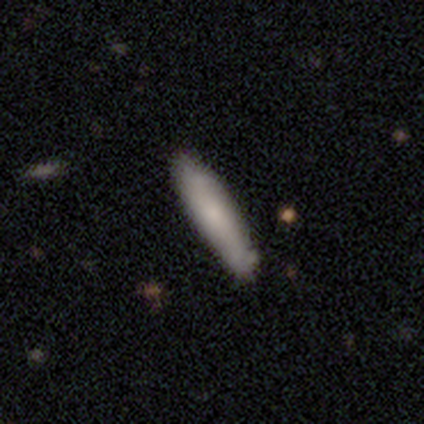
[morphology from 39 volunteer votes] type=smooth (72%); roundness=cigar-shaped (82%); merging=none (45%).